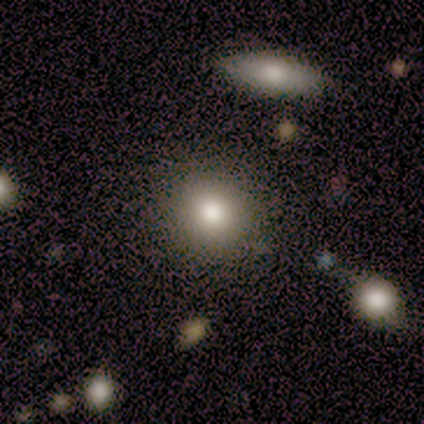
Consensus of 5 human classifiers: This appears to be a smooth galaxy with no disk features (80%) that is round (100%). Merging: none (100%).